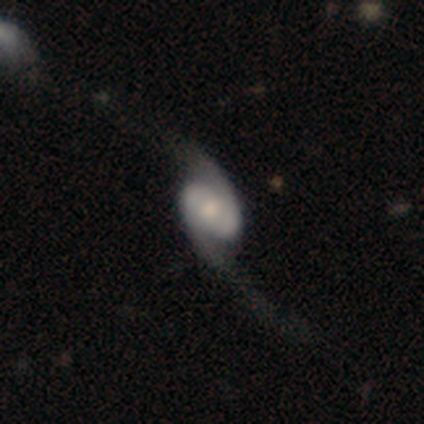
smooth_or_featured: featured or disk (p=0.80) [alt: star or artifact p=0.20]
disk_edge_on: no (p=1.00)
bar: weak (p=0.50) [tied with: no p=0.50]
has_spiral_arms: yes (p=0.75) [alt: no p=0.25]
spiral_winding: loose (p=0.67) [alt: medium p=0.33]
spiral_arm_count: 2 (p=1.00)
bulge_size: moderate (p=0.75) [alt: small p=0.25]
merging: major disturbance (p=0.50) [alt: none p=0.25]